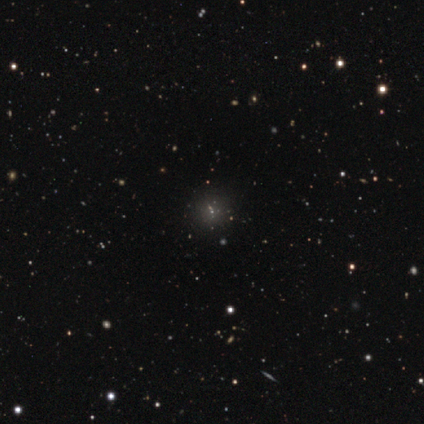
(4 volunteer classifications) This is likely a star or artifact rather than a galaxy (75%).